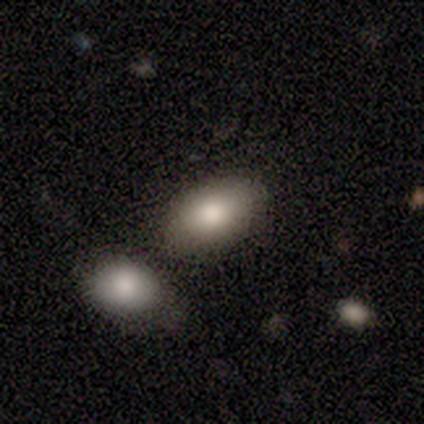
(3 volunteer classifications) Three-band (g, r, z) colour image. It shows a smooth galaxy with no disk features (100%) that is in between round and cigar-shaped (100%). Merging: none (33%, tied with minor disturbance and major disturbance).